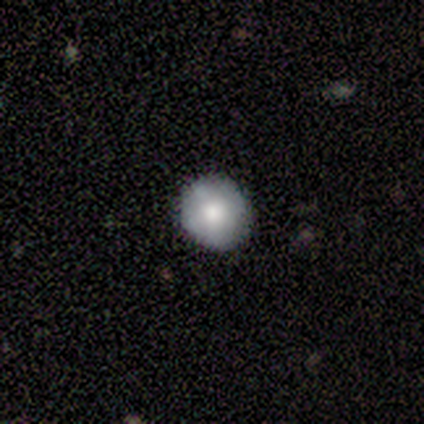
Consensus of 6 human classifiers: Volunteers were most divided on "smooth or featured": smooth: 50%, featured or disk: 33%, star or artifact: 17%. More confident: how rounded — round (100%); merging — none (100%).